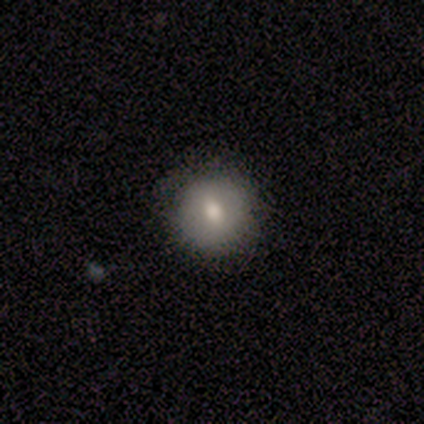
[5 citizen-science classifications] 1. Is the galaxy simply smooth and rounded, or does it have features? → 60% smooth, 40% featured or disk, 0% star or artifact.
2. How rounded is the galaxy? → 67% round, 33% in between, 0% cigar-shaped.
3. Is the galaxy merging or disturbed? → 100% none, 0% minor disturbance, 0% major disturbance, 0% merger.